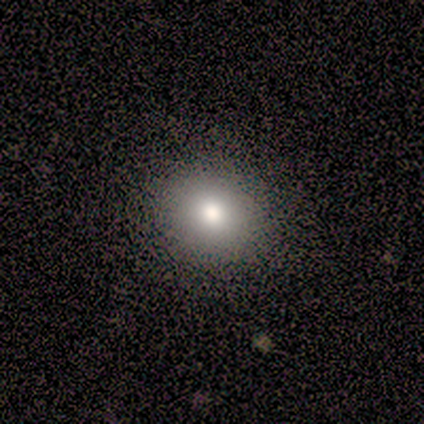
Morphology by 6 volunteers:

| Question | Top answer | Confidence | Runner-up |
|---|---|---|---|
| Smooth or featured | smooth | 67% | featured or disk (17%) |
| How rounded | round | 100% | — |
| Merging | none | 100% | — |